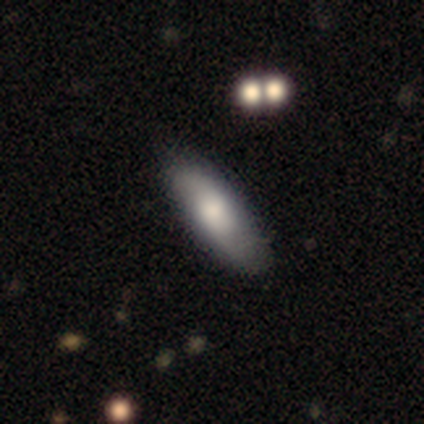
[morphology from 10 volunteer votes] A smooth galaxy with no disk features (80%) that is cigar-shaped (75%). Merging: none (70%).